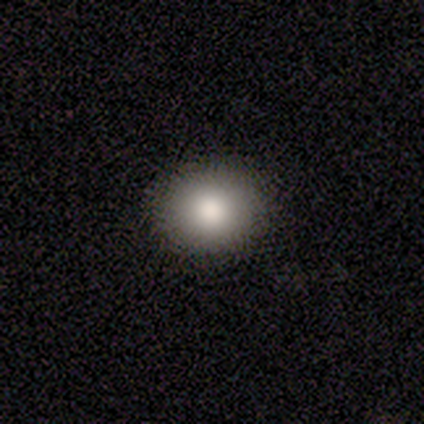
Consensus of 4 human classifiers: Smooth or featured? smooth (100%)
How rounded? round (50%, tied with in between)
Merging? none (75%)